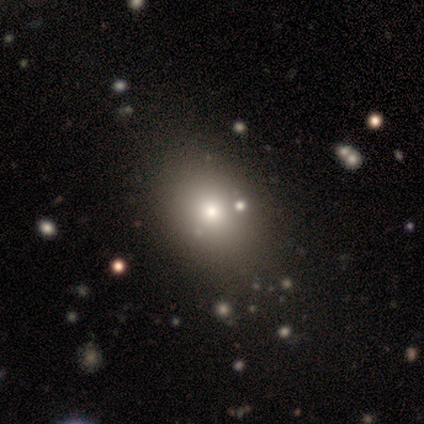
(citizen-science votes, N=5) A smooth galaxy with no disk features (80%) that is in between round and cigar-shaped (100%). Merging: none (80%).